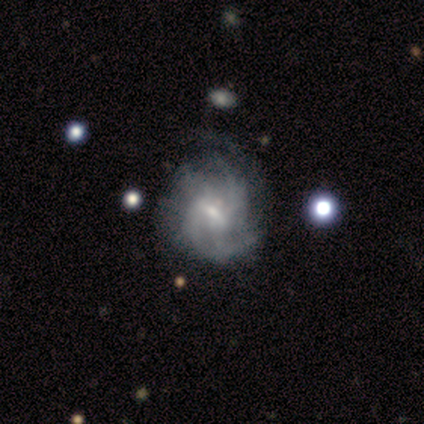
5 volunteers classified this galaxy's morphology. A featured or disk galaxy (80%) with a weak bar (100%), tight (67%) spiral arms (100%) and a small central bulge (100%).

Vote fractions:
- Smooth or featured? featured or disk: 80% / smooth: 20% / star or artifact: 0%
- Edge-on disk? no: 75% / yes: 25%
- Bar? weak: 100% / strong: 0% / no: 0%
- Spiral arms? yes: 100% / no: 0%
- Spiral winding? tight: 67% / medium: 33% / loose: 0%
- Spiral arm count? can't tell: 100% / 1: 0% / 2: 0% / 3: 0% / 4: 0% / more than 4: 0%
- Bulge size? small: 100% / dominant: 0% / large: 0% / moderate: 0% / none: 0%
- Merging? none: 60% / minor disturbance: 40% / major disturbance: 0% / merger: 0%